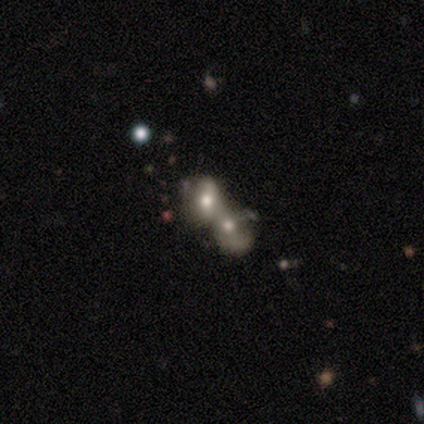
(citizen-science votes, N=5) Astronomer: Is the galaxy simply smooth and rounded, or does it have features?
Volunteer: smooth — 80%.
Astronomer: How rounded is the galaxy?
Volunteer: in between — 75%.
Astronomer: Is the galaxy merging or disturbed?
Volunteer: merger — 100%.